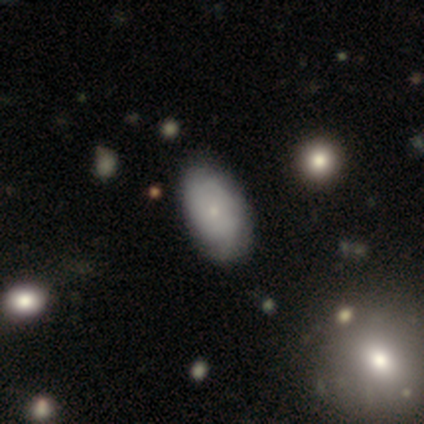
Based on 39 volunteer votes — Overall: smooth (51%; featured or disk 44%). How rounded: in between (95%). Merging: none (49%; minor disturbance 32%).